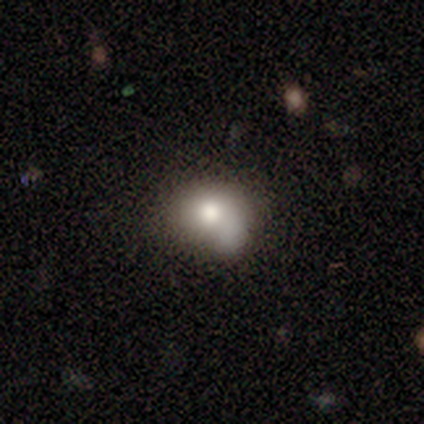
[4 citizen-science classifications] Volunteers were most divided on "bulge size" (2-way tie): moderate: 50%, none: 50%, dominant: 0%, large: 0%, small: 0%; "merging" (3-way tie): minor disturbance: 33%, major disturbance: 33%, merger: 33%, none: 0%. More confident: edge-on disk — no (100%); bar — no (100%); spiral arms — no (100%); smooth or featured — featured or disk (50%).